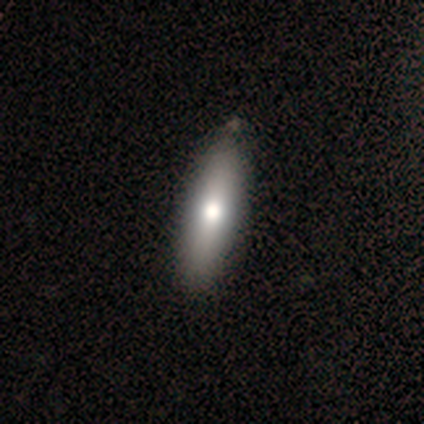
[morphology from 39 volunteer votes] Smooth or featured? 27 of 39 (69%) said smooth. How rounded? 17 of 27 (63%) said cigar-shaped. Merging? 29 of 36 (81%) said none.